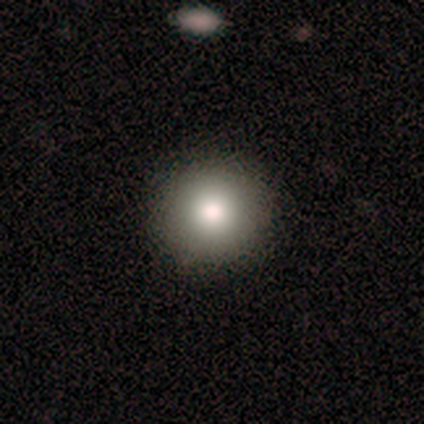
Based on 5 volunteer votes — Smooth or featured? smooth (80%)
How rounded? round (100%)
Merging? none (100%)